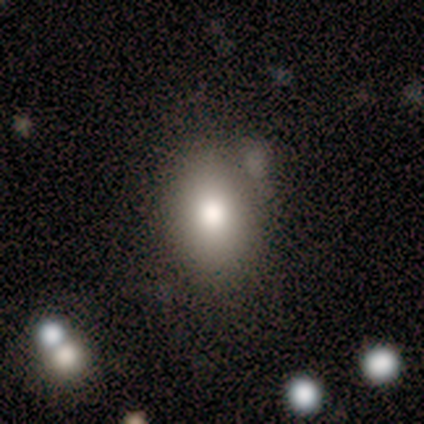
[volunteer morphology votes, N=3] Smooth or featured? smooth (100%)
How rounded? round (67%)
Merging? none (100%)